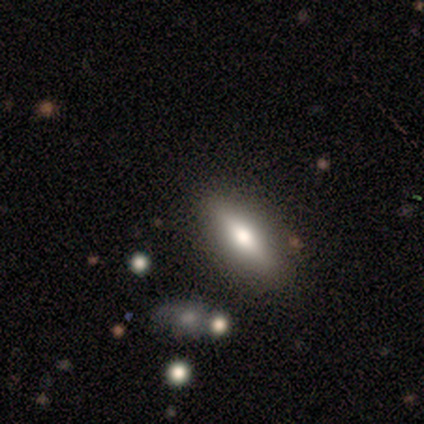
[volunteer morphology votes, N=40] A featured or disk galaxy (48%) viewed edge-on (58%) with a rounded central bulge (91%).

Vote fractions:
- Smooth or featured? featured or disk: 48% / smooth: 45% / star or artifact: 8%
- Edge-on disk? yes: 58% / no: 42%
- Edge-on bulge? rounded: 91% / none: 9% / boxy: 0%
- Merging? none: 86% / minor disturbance: 8% / major disturbance: 5% / merger: 0%